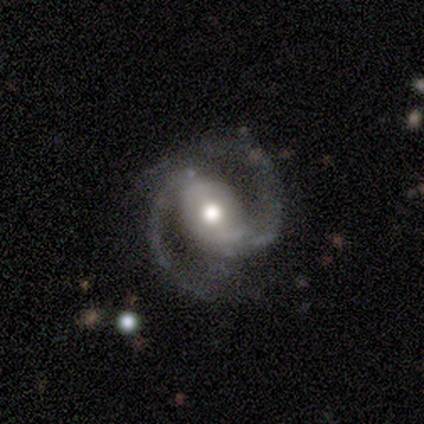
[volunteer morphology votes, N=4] This appears to be a featured or disk galaxy (75%) with a strong bar (33%, tied with weak and no), 2 (100%) medium (67%) spiral arms (100%) and a moderate central bulge (67%). Merging: none (100%).